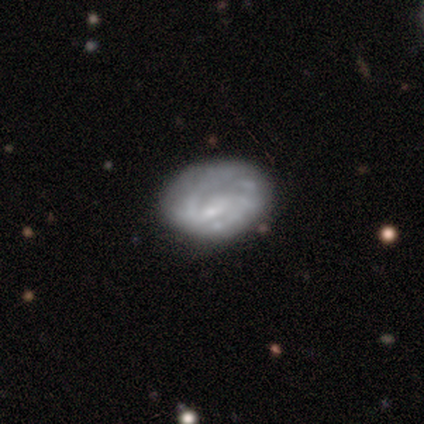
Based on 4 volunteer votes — A featured or disk galaxy (75%) with a strong bar (50%, tied with weak), 2 (100%) medium (100%) spiral arms (50%, tied with no) and a small central bulge (100%).

Vote fractions:
- Smooth or featured? featured or disk: 75% / smooth: 25% / star or artifact: 0%
- Edge-on disk? no: 67% / yes: 33%
- Bar? strong: 50% (tied) / weak: 50% (tied) / no: 0%
- Spiral arms? yes: 50% (tied) / no: 50% (tied)
- Spiral winding? medium: 100% / tight: 0% / loose: 0%
- Spiral arm count? 2: 100% / 1: 0% / 3: 0% / 4: 0% / more than 4: 0% / can't tell: 0%
- Bulge size? small: 100% / dominant: 0% / large: 0% / moderate: 0% / none: 0%
- Merging? minor disturbance: 75% / none: 25% / major disturbance: 0% / merger: 0%